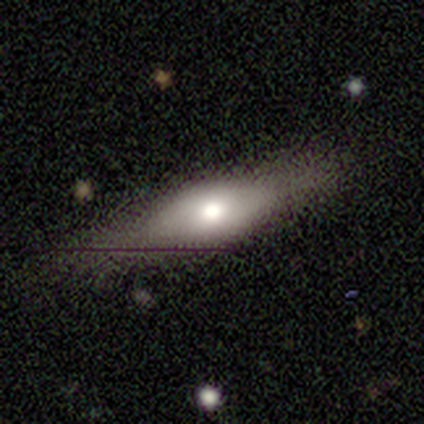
Volunteers were most divided on "smooth or featured": smooth: 53%, featured or disk: 42%, star or artifact: 5%. More confident: how rounded — in between (75%); merging — none (75%).